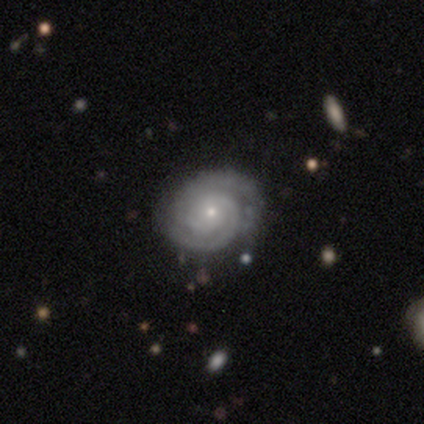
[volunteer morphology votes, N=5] smooth_or_featured: featured or disk (p=1.00)
disk_edge_on: no (p=1.00)
bar: no (p=1.00)
has_spiral_arms: yes (p=1.00)
spiral_winding: tight (p=1.00)
spiral_arm_count: 2 (p=0.80) [alt: can't tell p=0.20]
bulge_size: small (p=0.80) [alt: moderate p=0.20]
merging: none (p=1.00)